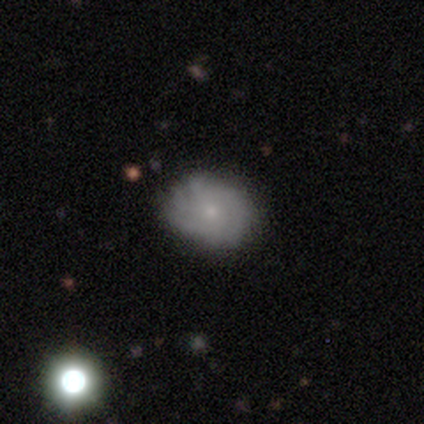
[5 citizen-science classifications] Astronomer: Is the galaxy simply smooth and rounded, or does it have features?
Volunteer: smooth — 40%, tied with featured or disk at 40%.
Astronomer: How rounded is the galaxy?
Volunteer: in between — 100%.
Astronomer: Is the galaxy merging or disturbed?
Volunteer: none — 50%, tied with minor disturbance at 50%.